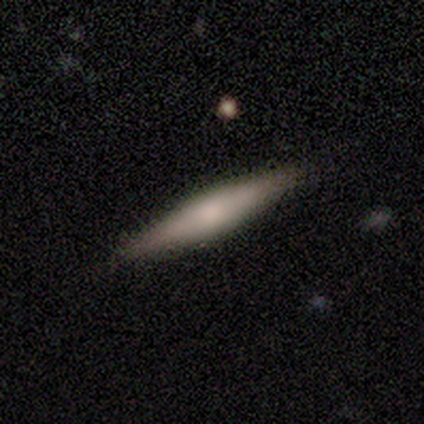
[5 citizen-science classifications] smooth 60%, featured or disk 40%, star or artifact 0%. Down the decision tree: how rounded — cigar-shaped (100%); merging — none (100%).